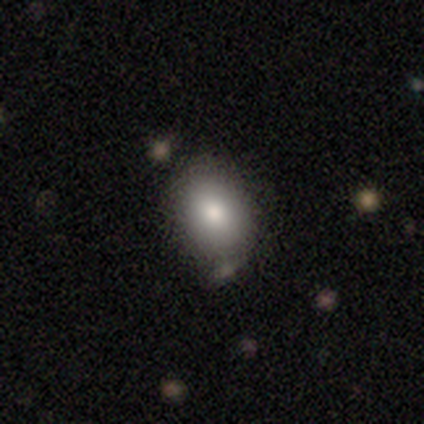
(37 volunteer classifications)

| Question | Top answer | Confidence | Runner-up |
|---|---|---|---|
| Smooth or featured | smooth | 81% | featured or disk (16%) |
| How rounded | in between | 67% | round (33%) |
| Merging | none | 78% | minor disturbance (14%) |